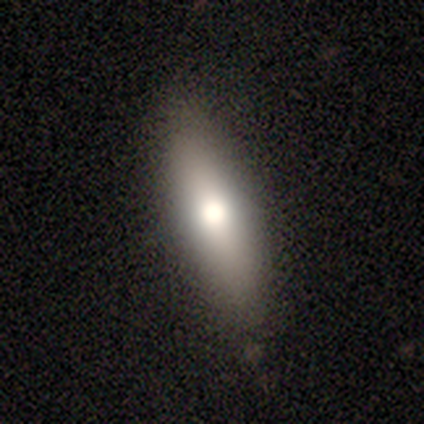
Overall: smooth (68%; featured or disk 32%). How rounded: in between (62%; cigar-shaped 38%). Merging: none (87%).